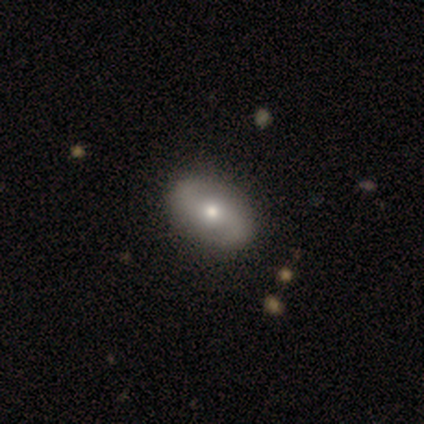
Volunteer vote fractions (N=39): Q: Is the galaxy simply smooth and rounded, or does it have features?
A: featured or disk — 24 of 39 (62%).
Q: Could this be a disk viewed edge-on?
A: no — 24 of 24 (100%).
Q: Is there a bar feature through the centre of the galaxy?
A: no — 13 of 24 (54%).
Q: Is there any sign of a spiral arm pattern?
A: yes — 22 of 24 (92%).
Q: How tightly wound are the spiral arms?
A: medium — 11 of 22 (50%).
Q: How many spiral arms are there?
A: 2 — 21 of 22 (95%).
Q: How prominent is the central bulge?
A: moderate — 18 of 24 (75%).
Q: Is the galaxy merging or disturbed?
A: none — 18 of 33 (55%).